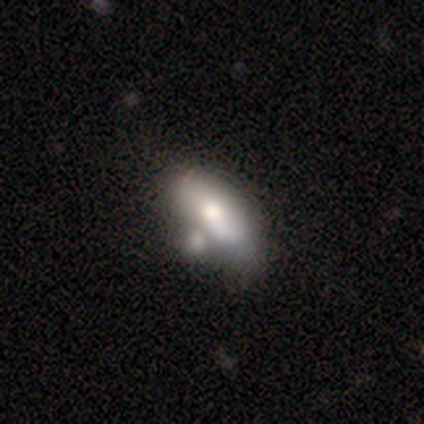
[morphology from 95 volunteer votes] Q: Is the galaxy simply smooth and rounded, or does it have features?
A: smooth — 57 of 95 (60%).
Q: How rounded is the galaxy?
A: in between — 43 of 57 (75%).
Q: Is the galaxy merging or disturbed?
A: merger — 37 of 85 (44%).